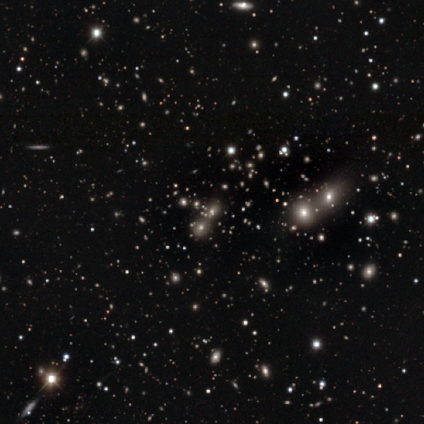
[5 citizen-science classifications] Morphology: type=star or artifact (80%).